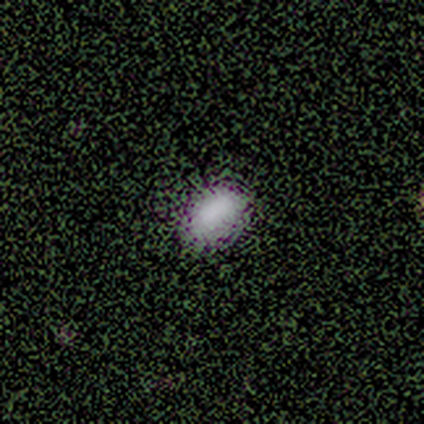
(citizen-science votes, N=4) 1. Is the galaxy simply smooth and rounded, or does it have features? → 75% smooth, 25% featured or disk, 0% star or artifact.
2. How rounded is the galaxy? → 100% in between, 0% round, 0% cigar-shaped.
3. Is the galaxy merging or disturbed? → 50% none, 25% minor disturbance, 25% major disturbance, 0% merger.